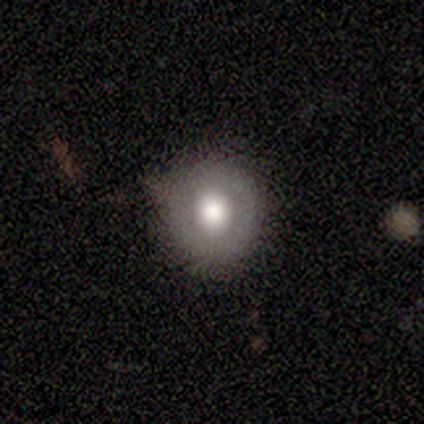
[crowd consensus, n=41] Smooth or featured? smooth (51%)
How rounded? round (86%)
Merging? none (81%)